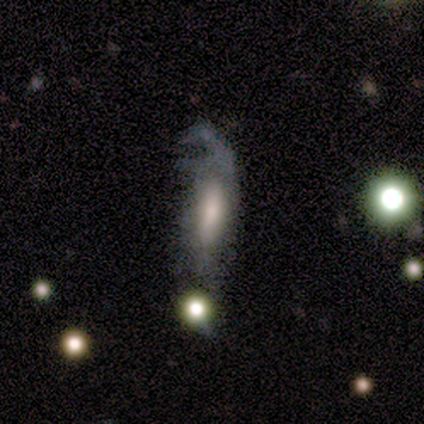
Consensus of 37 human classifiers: Overall: featured or disk (62%; smooth 35%). Edge-on disk: no (87%). Bar: no (50%; weak 30%). Spiral arms: yes (50%, tied with no). Spiral arm count: can't tell (40%; 1 20%). Spiral winding: loose (70%; tight 30%). Bulge size: moderate (40%; large 25%). Merging: major disturbance (53%; minor disturbance 28%).